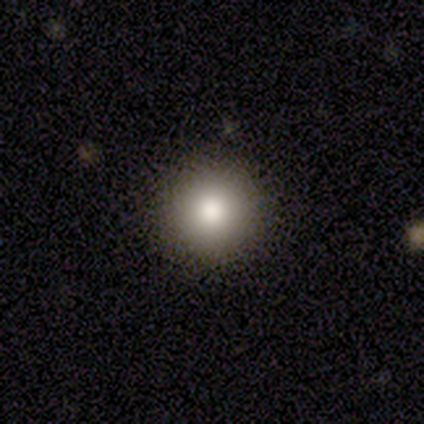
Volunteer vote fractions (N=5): This appears to be a smooth galaxy with no disk features (80%) that is round (100%). Merging: none (75%).